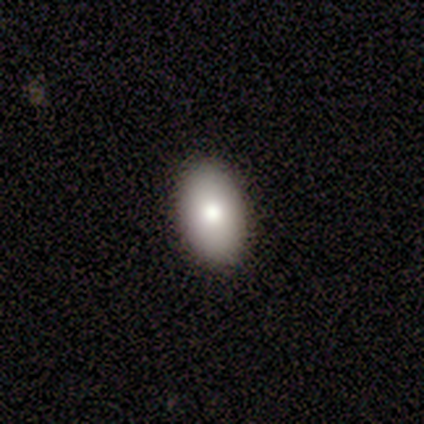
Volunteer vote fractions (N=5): Smooth or featured: smooth — 80% (star or artifact — 20%)
How rounded: in between — 100%
Merging: none — 100%